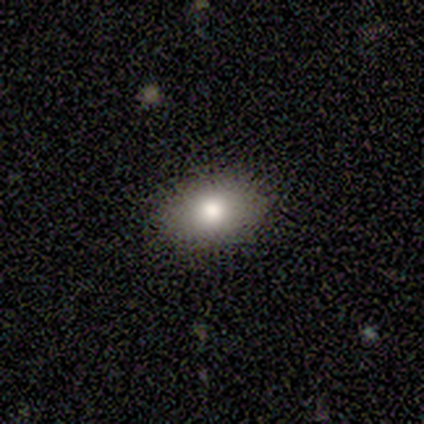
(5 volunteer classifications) Overall: smooth (80%). How rounded: in between (100%). Merging: none (100%).